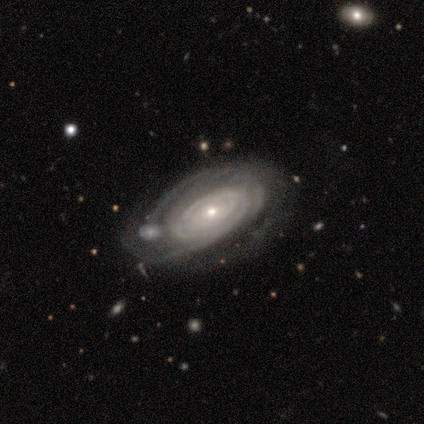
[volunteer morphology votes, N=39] Q: Smooth or featured?
A: featured or disk (82%); runner-up: smooth (15%)
Q: Edge-on disk?
A: no (94%); runner-up: yes (6%)
Q: Bar?
A: no (80%); runner-up: strong (10%)
Q: Spiral arms?
A: yes (93%); runner-up: no (7%)
Q: Spiral winding?
A: tight (79%); runner-up: medium (14%)
Q: Spiral arm count?
A: can't tell (57%); runner-up: 3 (14%)
Q: Bulge size?
A: small (70%); runner-up: moderate (20%)
Q: Merging?
A: none (42%); runner-up: minor disturbance (32%)